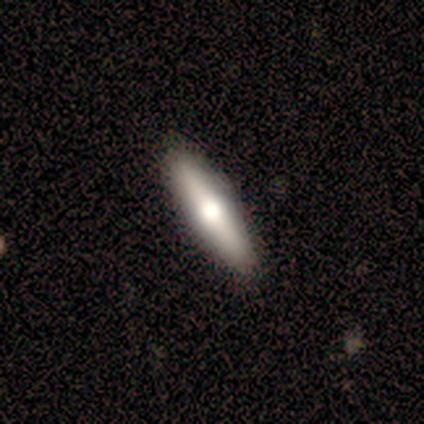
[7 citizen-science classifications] Overall: featured or disk (57%; smooth 43%). Edge-on disk: yes (100%). Edge-on bulge: rounded (100%). Merging: none (86%).